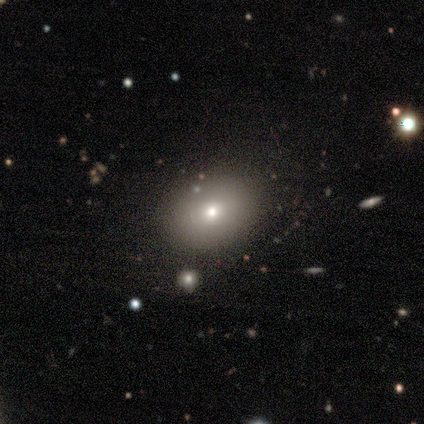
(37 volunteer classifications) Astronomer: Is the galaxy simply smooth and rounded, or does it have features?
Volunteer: smooth — 84%.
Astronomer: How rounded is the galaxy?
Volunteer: in between — 55% (runner-up: round, 45%).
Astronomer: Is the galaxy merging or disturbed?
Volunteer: none — 88%.